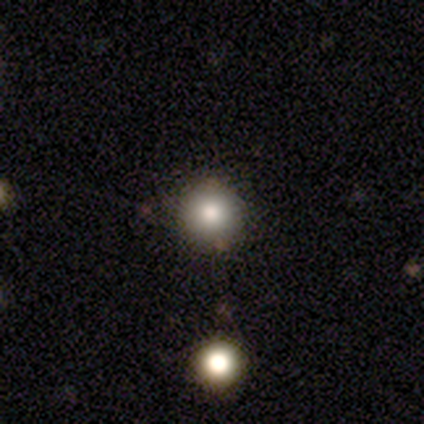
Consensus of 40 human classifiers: This is clearly a smooth galaxy (85%). How rounded: clearly round (97%). Merging: likely none (61%).